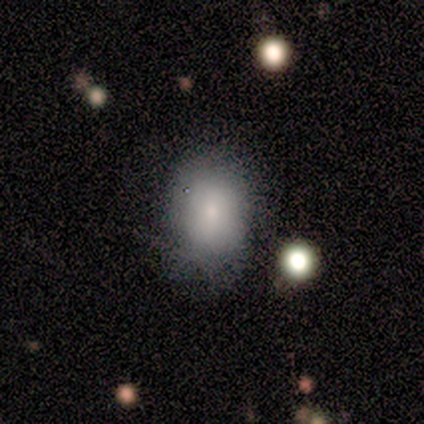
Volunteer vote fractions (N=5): This appears to be a smooth galaxy with no disk features (100%) that is in between round and cigar-shaped (100%). Merging: none (60%).